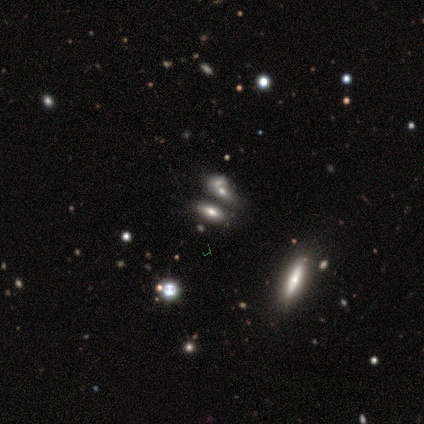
smooth_or_featured: smooth (p=0.75) [alt: featured or disk p=0.25]
how_rounded: in between (p=0.67) [alt: round p=0.33]
merging: none (p=0.75) [alt: major disturbance p=0.25]